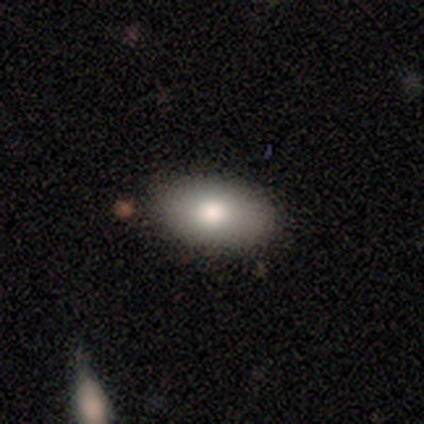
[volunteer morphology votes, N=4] A smooth galaxy with no disk features (75%) that is in between round and cigar-shaped (100%). Merging: none (100%).